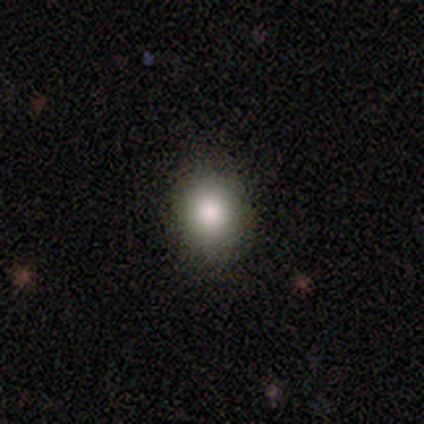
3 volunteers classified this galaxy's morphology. Volunteers were most divided on "smooth or featured": smooth: 67%, star or artifact: 33%, featured or disk: 0%. More confident: how rounded — round (100%); merging — none (100%).